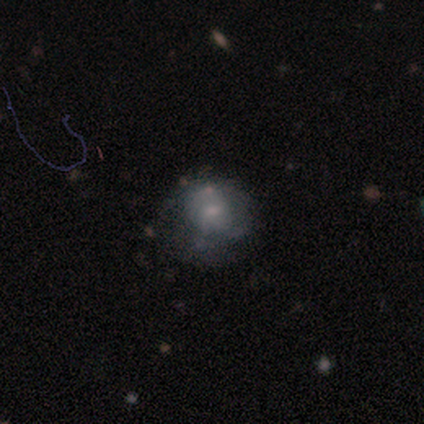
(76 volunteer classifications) This is possibly a featured or disk galaxy (55%). It is clearly not viewed edge-on (100%). Bar: likely no (74%). Spiral arm pattern: likely no (67%). Central bulge: possibly small (57%). Merging: marginally none (44%).